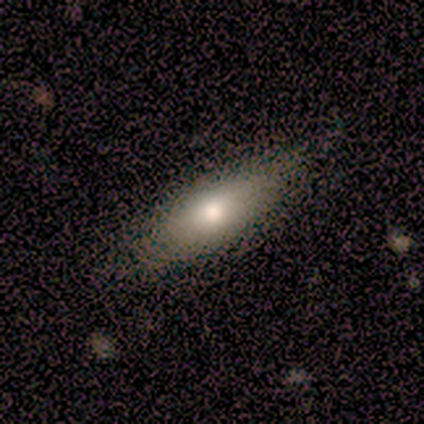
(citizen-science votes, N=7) Volunteers were most divided on "merging": none: 57%, minor disturbance: 43%, major disturbance: 0%, merger: 0%. More confident: smooth or featured — smooth (71%); how rounded — in between (60%).